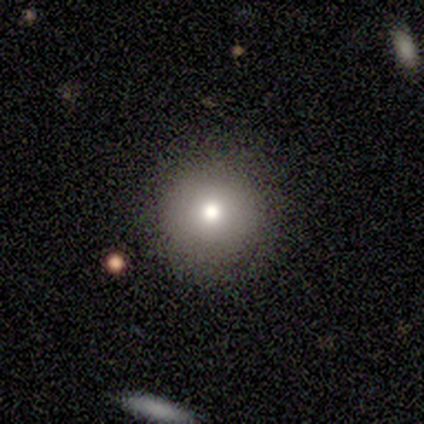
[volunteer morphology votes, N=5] Q: Smooth or featured?
A: smooth (60%); runner-up: featured or disk (40%)
Q: How rounded?
A: round (100%)
Q: Merging?
A: none (80%); runner-up: minor disturbance (20%)